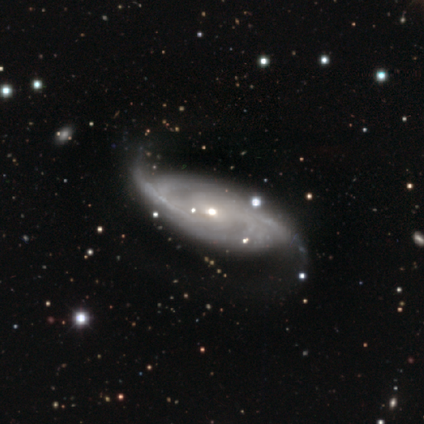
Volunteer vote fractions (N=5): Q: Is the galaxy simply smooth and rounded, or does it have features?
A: featured or disk — 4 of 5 (80%).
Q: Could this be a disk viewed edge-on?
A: no — 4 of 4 (100%).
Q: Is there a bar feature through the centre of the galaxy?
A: no — 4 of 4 (100%).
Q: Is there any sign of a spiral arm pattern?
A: yes — 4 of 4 (100%).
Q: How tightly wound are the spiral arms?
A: tight — 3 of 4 (75%).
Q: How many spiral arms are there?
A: can't tell — 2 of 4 (50%).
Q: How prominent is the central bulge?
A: moderate — 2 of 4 (50%, tied with small).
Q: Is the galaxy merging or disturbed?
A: none — 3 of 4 (75%).